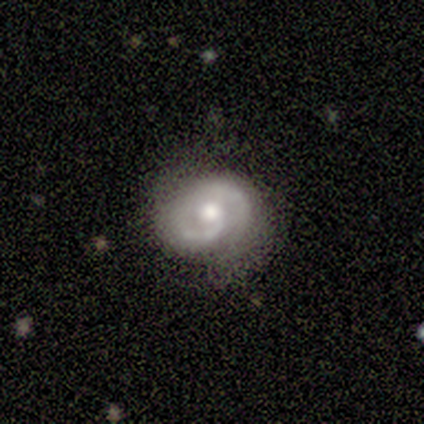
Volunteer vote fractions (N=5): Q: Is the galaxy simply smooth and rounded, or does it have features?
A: featured or disk — 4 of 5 (80%).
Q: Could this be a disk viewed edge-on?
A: no — 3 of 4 (75%).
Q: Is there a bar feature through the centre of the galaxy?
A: no — 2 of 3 (67%).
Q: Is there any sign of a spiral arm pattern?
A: yes — 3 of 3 (100%).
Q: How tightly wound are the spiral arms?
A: tight — 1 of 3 (33%, tied with medium and loose).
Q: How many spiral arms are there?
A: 2 — 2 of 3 (67%).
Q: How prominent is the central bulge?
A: moderate — 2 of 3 (67%).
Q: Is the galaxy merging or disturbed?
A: none — 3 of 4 (75%).